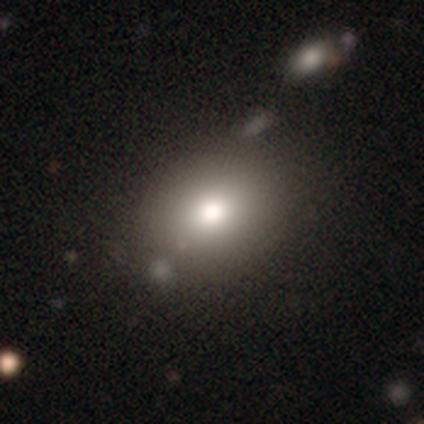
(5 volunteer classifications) Smooth or featured? smooth (60%)
How rounded? in between (100%)
Merging? none (100%)